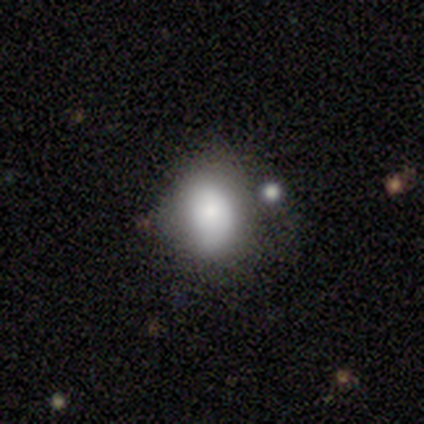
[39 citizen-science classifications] smooth_or_featured: smooth (p=0.69) [alt: featured or disk p=0.18]
how_rounded: in between (p=0.59) [alt: round p=0.41]
merging: none (p=0.47) [alt: minor disturbance p=0.35]